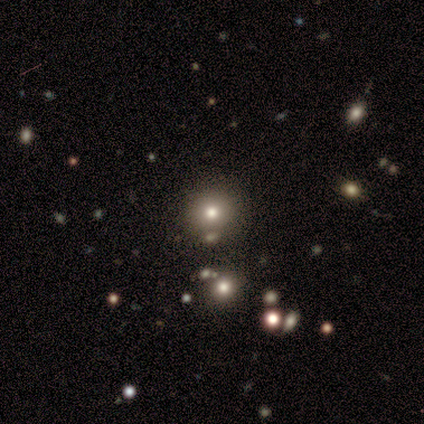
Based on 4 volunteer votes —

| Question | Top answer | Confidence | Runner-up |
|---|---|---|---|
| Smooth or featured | smooth | 75% | star or artifact (25%) |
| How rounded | in between | 67% | round (33%) |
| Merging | none | 67% | minor disturbance (33%) |